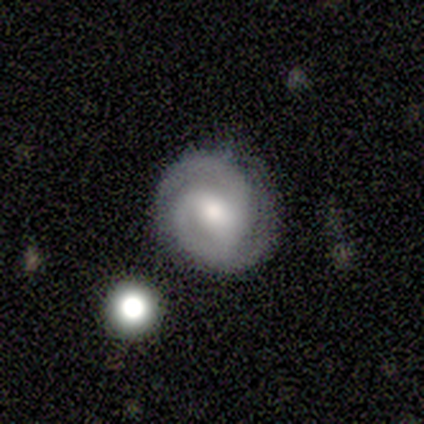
Q: Smooth or featured?
A: featured or disk (80%); runner-up: star or artifact (20%)
Q: Edge-on disk?
A: no (100%)
Q: Bar?
A: weak (75%); runner-up: strong (25%)
Q: Spiral arms?
A: yes (100%)
Q: Spiral winding?
A: tight (50%); tied with: medium (50%)
Q: Spiral arm count?
A: 2 (75%); runner-up: can't tell (25%)
Q: Bulge size?
A: small (50%); runner-up: large (25%)
Q: Merging?
A: none (100%)